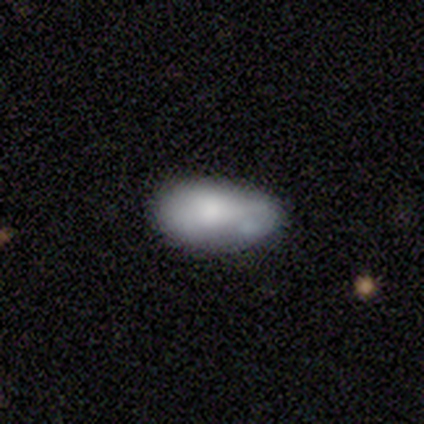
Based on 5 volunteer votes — Smooth or featured: featured or disk — 60% (smooth — 40%)
Edge-on disk: no — 100%
Bar: no — 100%
Spiral arms: no — 100%
Bulge size: small — 67% (none — 33%)
Merging: none — 40% (tied with minor disturbance — 40%)